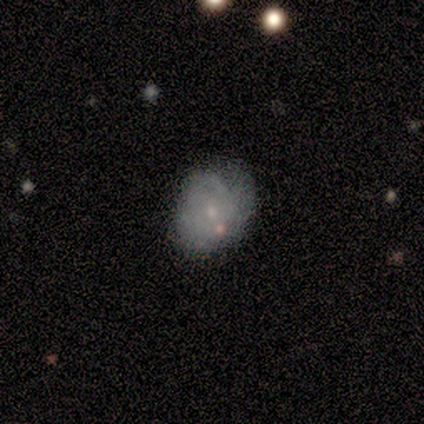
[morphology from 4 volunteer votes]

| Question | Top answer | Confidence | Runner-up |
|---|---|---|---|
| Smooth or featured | smooth | 50% | tied: featured or disk (50%) |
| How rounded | in between | 100% | — |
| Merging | minor disturbance | 75% | none (25%) |